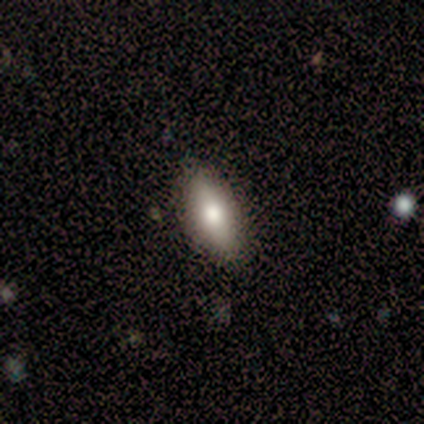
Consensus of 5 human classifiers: A smooth galaxy with no disk features (80%) that is in between round and cigar-shaped (50%, tied with cigar-shaped).

Vote fractions:
- Smooth or featured? smooth: 80% / featured or disk: 20% / star or artifact: 0%
- How rounded? in between: 50% (tied) / cigar-shaped: 50% (tied) / round: 0%
- Merging? none: 100% / minor disturbance: 0% / major disturbance: 0% / merger: 0%